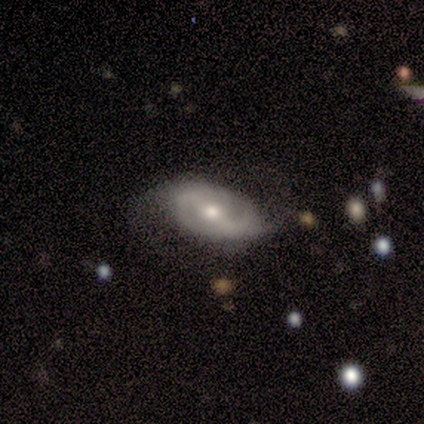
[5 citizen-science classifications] featured or disk 80%, star or artifact 20%, smooth 0%. Down the decision tree: edge-on disk — no (100%); bar — no (50%); spiral arms — yes (100%); spiral arm count — 2 (75%); spiral winding — loose (75%); bulge size — moderate (75%); merging — none (75%).